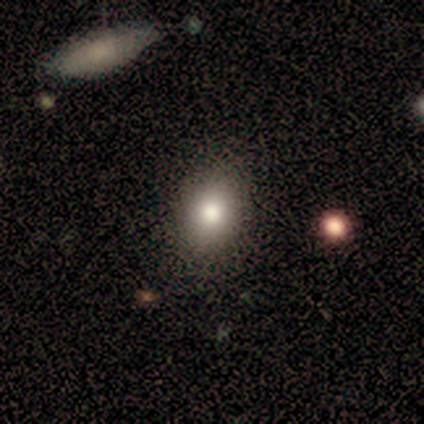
Q: Smooth or featured?
A: smooth (80%); runner-up: featured or disk (20%)
Q: How rounded?
A: in between (75%); runner-up: round (25%)
Q: Merging?
A: none (60%); runner-up: minor disturbance (40%)